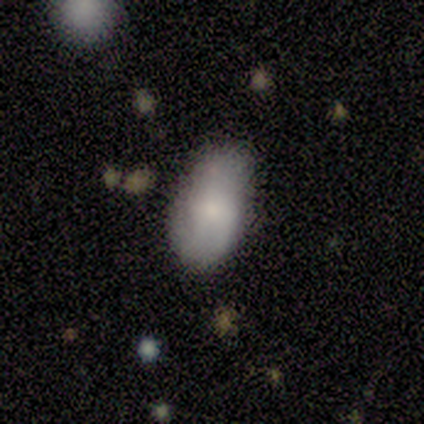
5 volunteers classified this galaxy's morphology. Smooth or featured: smooth — 100%
How rounded: in between — 100%
Merging: none — 80% (minor disturbance — 20%)